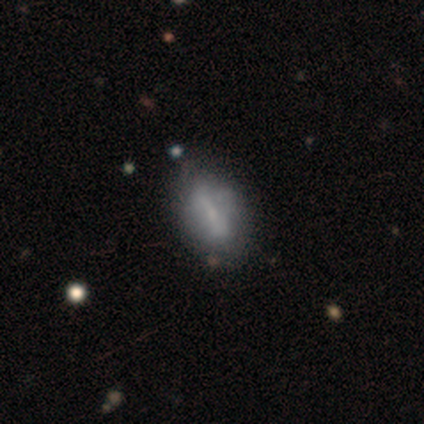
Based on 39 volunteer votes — Morphology: type=smooth (62%); roundness=in between (92%); merging=none (41%).